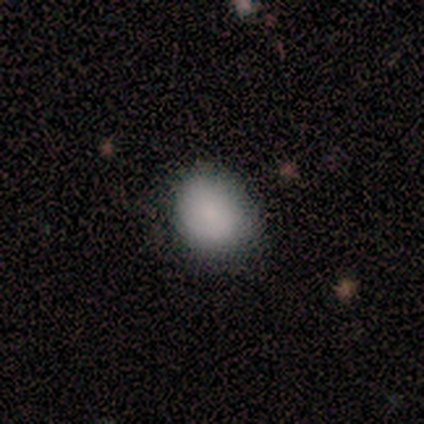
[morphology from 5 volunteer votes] This is clearly a smooth galaxy (100%). How rounded: likely in between (60%). Merging: clearly none (100%).